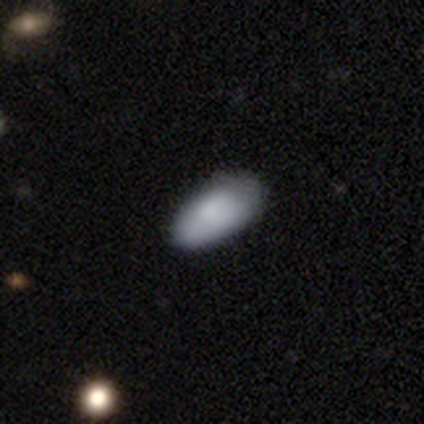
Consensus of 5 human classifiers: This is clearly a smooth galaxy (100%). How rounded: clearly in between (100%). Merging: clearly none (80%).